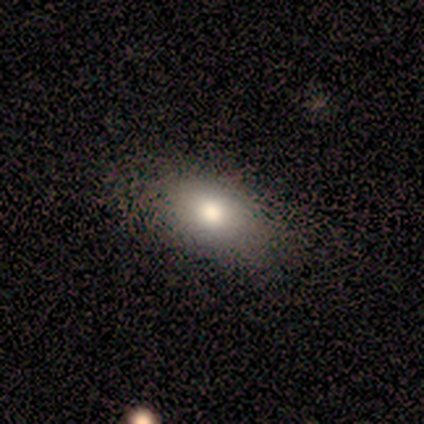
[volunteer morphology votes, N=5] This appears to be a smooth galaxy with no disk features (100%) that is in between round and cigar-shaped (100%). Merging: none (60%).